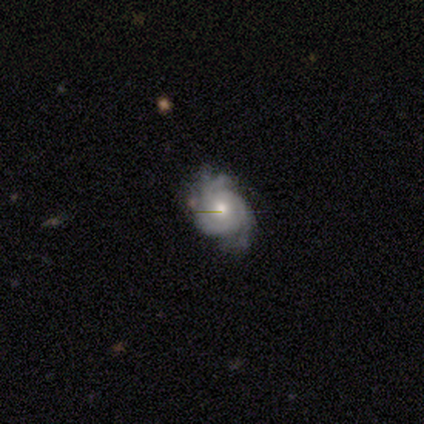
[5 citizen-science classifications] A featured or disk galaxy (80%) with no bar (100%), tight (75%) spiral arms (100%) and a moderate central bulge (75%).

Vote fractions:
- Smooth or featured? featured or disk: 80% / smooth: 20% / star or artifact: 0%
- Edge-on disk? no: 100% / yes: 0%
- Bar? no: 100% / strong: 0% / weak: 0%
- Spiral arms? yes: 100% / no: 0%
- Spiral winding? tight: 75% / medium: 25% / loose: 0%
- Spiral arm count? can't tell: 75% / 4: 25% / 1: 0% / 2: 0% / 3: 0% / more than 4: 0%
- Bulge size? moderate: 75% / large: 25% / dominant: 0% / small: 0% / none: 0%
- Merging? none: 60% / minor disturbance: 20% / major disturbance: 20% / merger: 0%